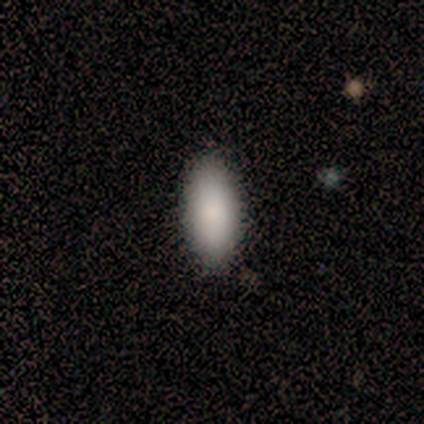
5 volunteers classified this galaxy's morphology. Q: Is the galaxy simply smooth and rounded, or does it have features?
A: smooth — 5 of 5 (100%).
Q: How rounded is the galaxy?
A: in between — 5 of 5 (100%).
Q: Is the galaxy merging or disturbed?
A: none — 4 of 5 (80%).